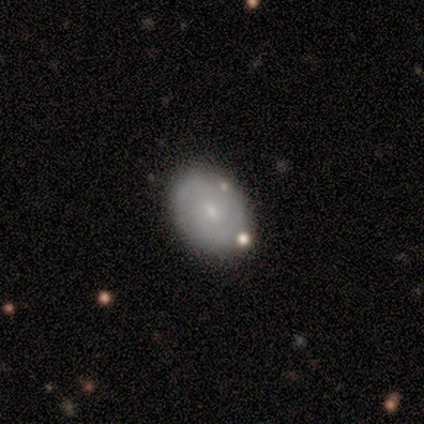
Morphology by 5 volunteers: A smooth galaxy with no disk features (60%) that is round (100%).

Vote fractions:
- Smooth or featured? smooth: 60% / featured or disk: 40% / star or artifact: 0%
- How rounded? round: 100% / in between: 0% / cigar-shaped: 0%
- Merging? none: 80% / major disturbance: 20% / minor disturbance: 0% / merger: 0%